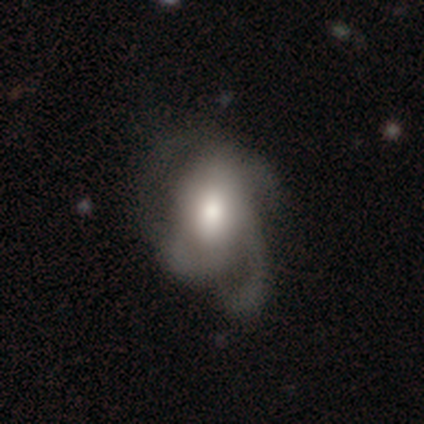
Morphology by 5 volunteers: smooth-or-featured: featured or disk: 60% | smooth: 40% | star or artifact: 0%
  disk-edge-on: no: 67% | yes: 33%
    bar: weak: 50% (tied) | no: 50% (tied) | strong: 0%
    has-spiral-arms: yes: 100% | no: 0%
      spiral-winding: medium: 50% (tied) | loose: 50% (tied) | tight: 0%
      spiral-arm-count: 2: 100% | 1: 0% | 3: 0% | 4: 0% | more than 4: 0% | can't tell: 0%
    bulge-size: moderate: 100% | dominant: 0% | large: 0% | small: 0% | none: 0%
  merging: none: 60% | minor disturbance: 20% | major disturbance: 20% | merger: 0%